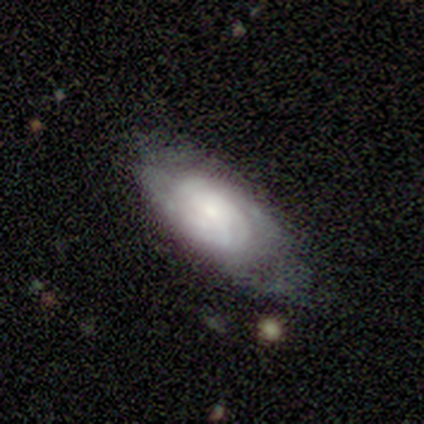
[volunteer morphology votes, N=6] A featured or disk galaxy (83%) with no bar (100%), 2 (33%, tied with 4 and can't tell) tight (100%) spiral arms (75%) and a moderate central bulge (50%).

Vote fractions:
- Smooth or featured? featured or disk: 83% / smooth: 17% / star or artifact: 0%
- Edge-on disk? no: 80% / yes: 20%
- Bar? no: 100% / strong: 0% / weak: 0%
- Spiral arms? yes: 75% / no: 25%
- Spiral winding? tight: 100% / medium: 0% / loose: 0%
- Spiral arm count? 2: 33% (tied) / 4: 33% (tied) / can't tell: 33% (tied) / 1: 0% / 3: 0% / more than 4: 0%
- Bulge size? moderate: 50% / dominant: 25% / small: 25% / large: 0% / none: 0%
- Merging? none: 50% / minor disturbance: 33% / major disturbance: 17% / merger: 0%